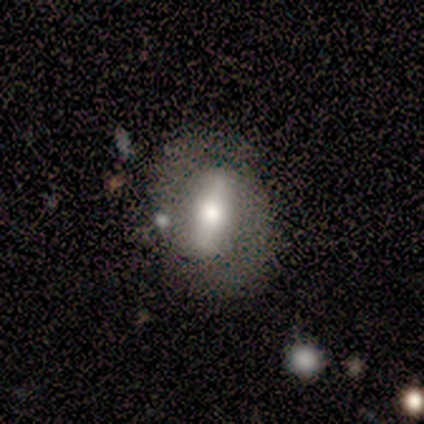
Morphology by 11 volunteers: Smooth or featured?
  - featured or disk: 64% *
  - smooth: 36%
  - star or artifact: 0%
Edge-on disk?
  - no: 86% *
  - yes: 14%
Bar?
  - strong: 83% *
  - weak: 17%
  - no: 0%
Spiral arms?
  - yes: 67% *
  - no: 33%
Spiral winding?
  - medium: 100% *
  - tight: 0%
  - loose: 0%
Spiral arm count?
  - 2: 100% *
  - 1: 0%
  - 3: 0%
  - 4: 0%
  - more than 4: 0%
  - can't tell: 0%
Bulge size?
  - moderate: 67% *
  - large: 17%
  - small: 17%
  - dominant: 0%
  - none: 0%
Merging?
  - none: 73% *
  - minor disturbance: 27%
  - major disturbance: 0%
  - merger: 0%